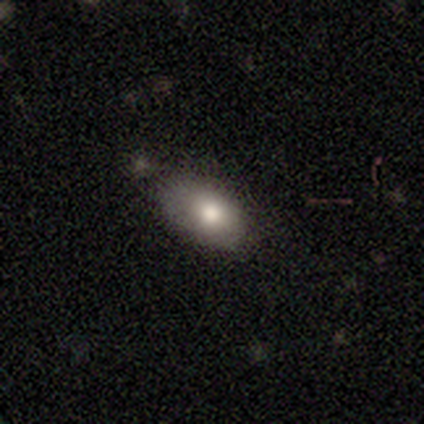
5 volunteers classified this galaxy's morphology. Smooth or featured? 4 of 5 (80%) said smooth. How rounded? 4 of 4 (100%) said in between. Merging? 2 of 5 (40%, tied with merger) said minor disturbance.